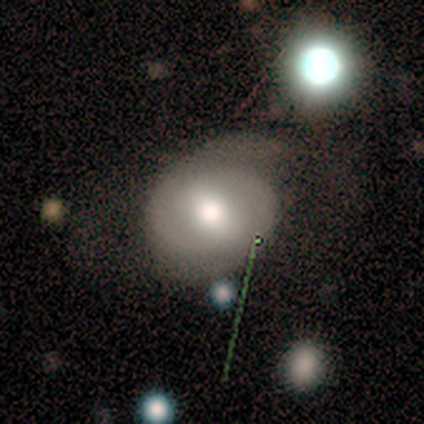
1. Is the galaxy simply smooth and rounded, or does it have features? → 60% featured or disk, 40% smooth, 0% star or artifact.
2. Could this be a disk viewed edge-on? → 67% no, 33% yes.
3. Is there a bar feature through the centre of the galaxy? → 100% weak, 0% strong, 0% no.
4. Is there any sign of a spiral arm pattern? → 100% yes, 0% no.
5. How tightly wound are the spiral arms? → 100% loose, 0% tight, 0% medium.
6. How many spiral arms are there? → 50% 2 (tied), 50% can't tell (tied), 0% 1, 0% 3, 0% 4, 0% more than 4.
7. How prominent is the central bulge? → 50% large (tied), 50% moderate (tied), 0% dominant, 0% small, 0% none.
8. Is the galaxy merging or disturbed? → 40% none (tied), 40% minor disturbance (tied), 20% major disturbance, 0% merger.